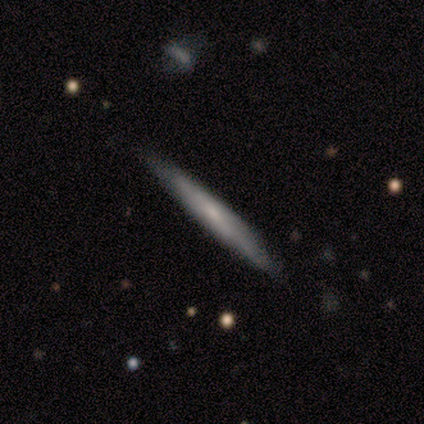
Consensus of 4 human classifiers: featured or disk 75%, smooth 25%, star or artifact 0%. Down the decision tree: edge-on disk — yes (67%); edge-on bulge — none (100%); merging — none (100%).